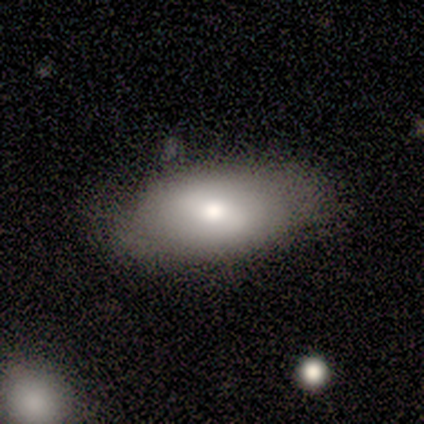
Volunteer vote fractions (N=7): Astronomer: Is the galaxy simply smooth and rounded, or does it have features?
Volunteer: smooth — 71%.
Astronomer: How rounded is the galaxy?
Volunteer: in between — 100%.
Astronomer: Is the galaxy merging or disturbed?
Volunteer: minor disturbance — 86%.